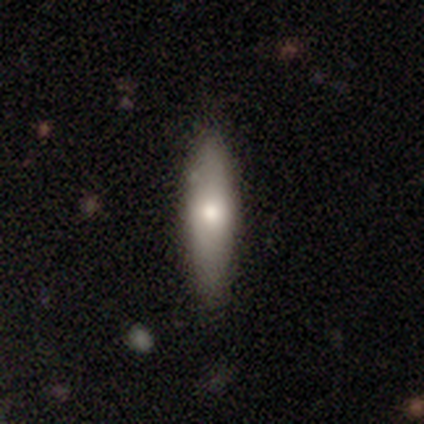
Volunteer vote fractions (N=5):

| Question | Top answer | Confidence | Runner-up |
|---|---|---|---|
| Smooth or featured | smooth | 100% | — |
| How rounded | cigar-shaped | 60% | in between (40%) |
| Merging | none | 80% | minor disturbance (20%) |